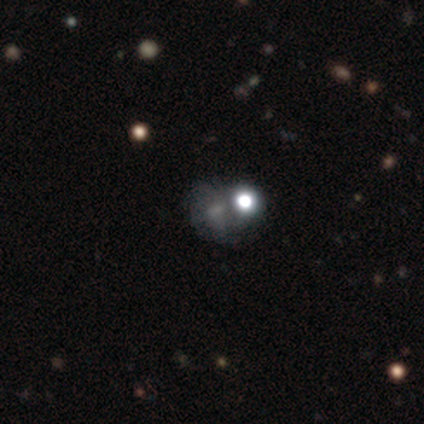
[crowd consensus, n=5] A smooth galaxy with no disk features (40%, tied with featured or disk) that is round (50%, tied with in between). Merging: none (50%).